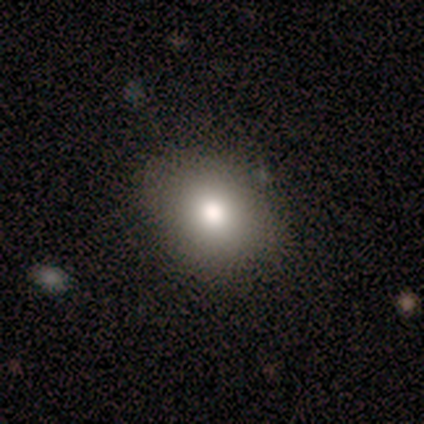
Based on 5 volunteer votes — A smooth galaxy with no disk features (100%) that is round (60%).

Vote fractions:
- Smooth or featured? smooth: 100% / featured or disk: 0% / star or artifact: 0%
- How rounded? round: 60% / in between: 40% / cigar-shaped: 0%
- Merging? none: 100% / minor disturbance: 0% / major disturbance: 0% / merger: 0%